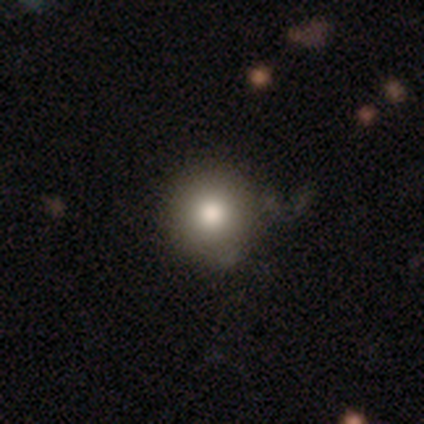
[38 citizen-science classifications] Smooth or featured? smooth (82%)
How rounded? round (94%)
Merging? none (65%)